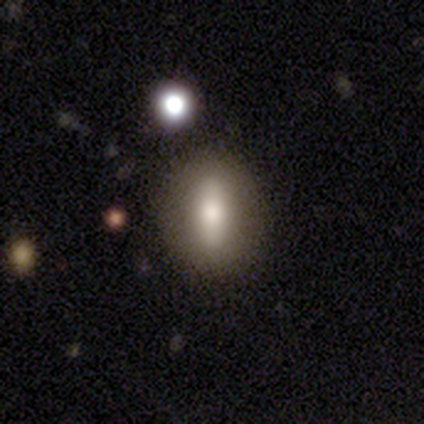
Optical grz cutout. It shows a smooth galaxy with no disk features (63%) that is in between round and cigar-shaped (67%). Merging: none (91%).